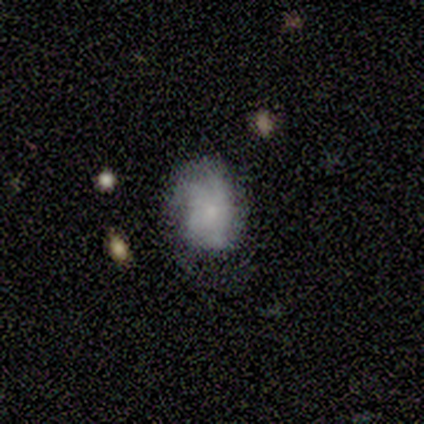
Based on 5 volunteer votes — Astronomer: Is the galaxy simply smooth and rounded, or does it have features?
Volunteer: smooth — 80%.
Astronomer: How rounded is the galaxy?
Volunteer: in between — 75%.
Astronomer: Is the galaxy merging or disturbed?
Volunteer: none — 60% (runner-up: major disturbance, 40%).